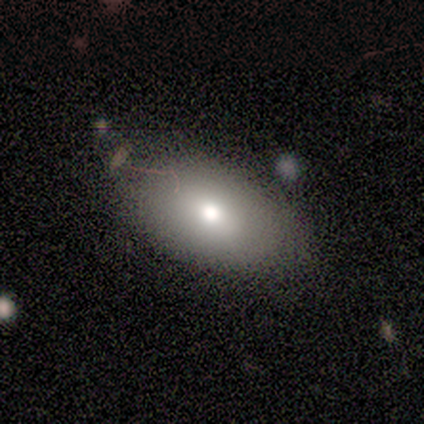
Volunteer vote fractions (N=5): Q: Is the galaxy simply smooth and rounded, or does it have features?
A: smooth — 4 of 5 (80%).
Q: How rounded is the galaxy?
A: round — 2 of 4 (50%, tied with in between).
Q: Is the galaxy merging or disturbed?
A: none — 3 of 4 (75%).